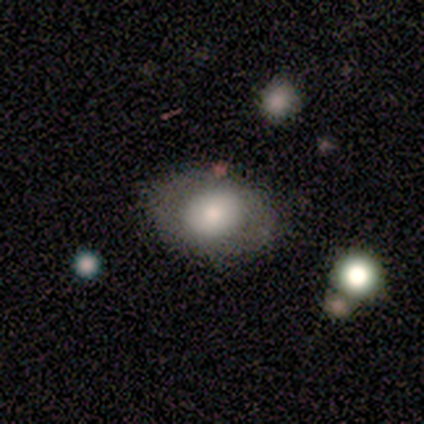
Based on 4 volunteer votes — Smooth or featured: smooth — 75% (featured or disk — 25%)
How rounded: round — 100%
Merging: none — 75% (merger — 25%)